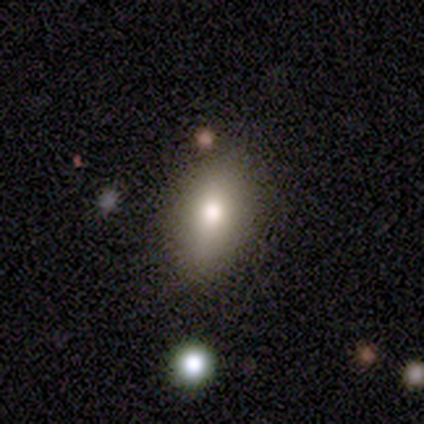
Smooth or featured? 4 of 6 (67%) said smooth. How rounded? 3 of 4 (75%) said in between. Merging? 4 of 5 (80%) said none.